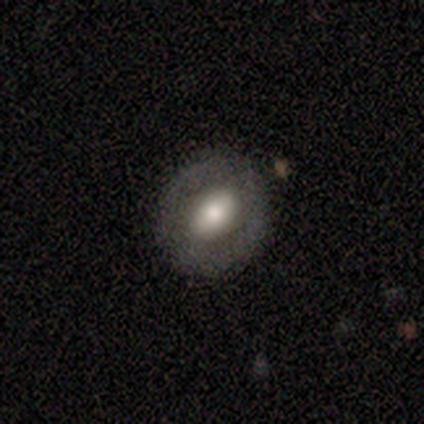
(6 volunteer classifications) Smooth or featured? smooth (50%, tied with featured or disk)
How rounded? round (100%)
Merging? none (67%)